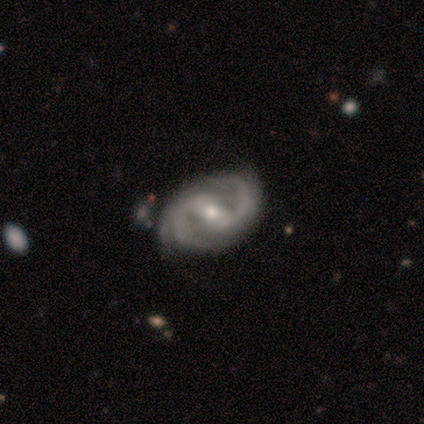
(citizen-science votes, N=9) smooth_or_featured: featured or disk (p=0.89) [alt: star or artifact p=0.11]
disk_edge_on: no (p=0.88) [alt: yes p=0.12]
bar: weak (p=0.57) [alt: strong p=0.43]
has_spiral_arms: yes (p=1.00)
spiral_winding: medium (p=0.57) [alt: tight p=0.43]
spiral_arm_count: 2 (p=0.43) [alt: 4 p=0.29]
bulge_size: moderate (p=0.71) [alt: small p=0.29]
merging: none (p=0.62) [alt: minor disturbance p=0.25]